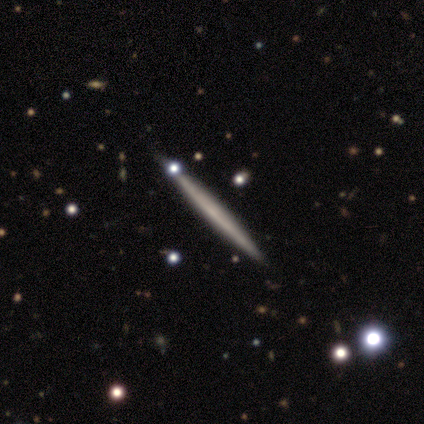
Q: Smooth or featured?
A: smooth (80%); runner-up: featured or disk (20%)
Q: How rounded?
A: cigar-shaped (100%)
Q: Merging?
A: none (80%); runner-up: minor disturbance (20%)